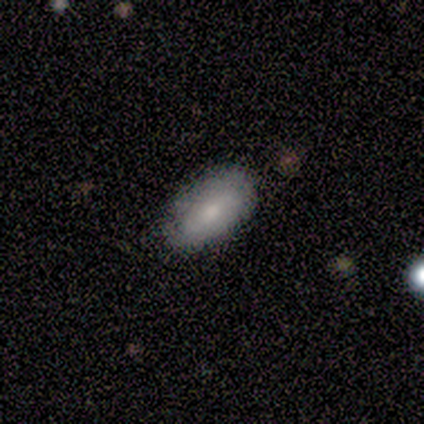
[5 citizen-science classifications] Volunteers were most divided on "smooth or featured": smooth: 80%, featured or disk: 20%, star or artifact: 0%. More confident: how rounded — in between (100%); merging — none (80%).